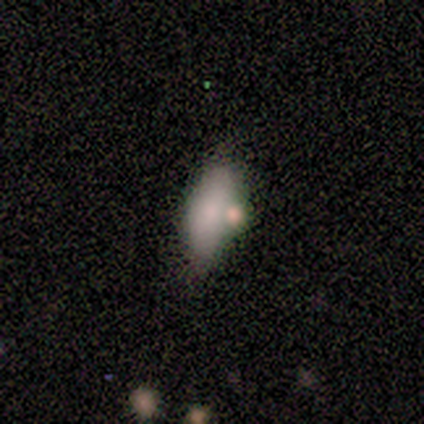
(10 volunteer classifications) This is clearly a smooth galaxy (100%). How rounded: clearly in between (80%). Merging: likely none (60%).